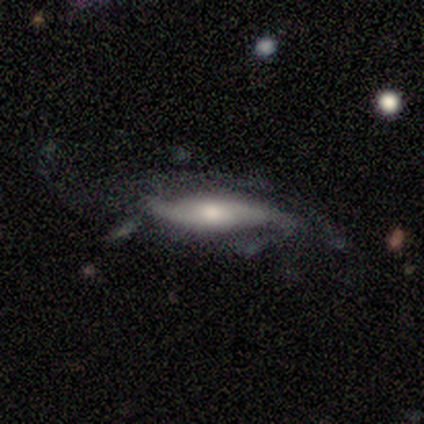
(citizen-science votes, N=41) This is likely a featured or disk galaxy (73%). It is likely not viewed edge-on (60%). Bar: possibly no (50%). Spiral arm pattern: clearly yes (89%). Spiral arm count: likely 2 (75%). Spiral winding: likely loose (62%). Central bulge: marginally moderate (44%). Merging: marginally major disturbance (42%).